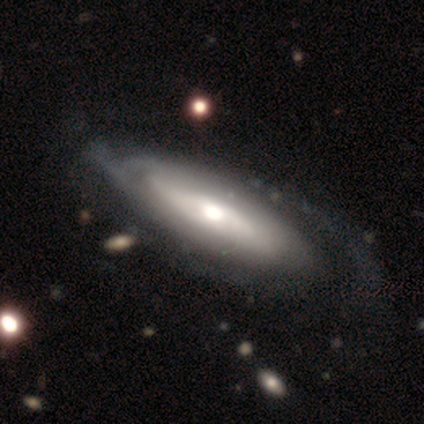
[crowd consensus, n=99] Q: Smooth or featured?
A: featured or disk (70%); runner-up: smooth (26%)
Q: Edge-on disk?
A: no (83%); runner-up: yes (17%)
Q: Bar?
A: no (70%); runner-up: weak (19%)
Q: Spiral arms?
A: yes (67%); runner-up: no (33%)
Q: Spiral winding?
A: tight (61%); runner-up: loose (21%)
Q: Spiral arm count?
A: can't tell (58%); runner-up: 2 (32%)
Q: Bulge size?
A: moderate (70%); runner-up: large (14%)
Q: Merging?
A: none (52%); runner-up: minor disturbance (29%)